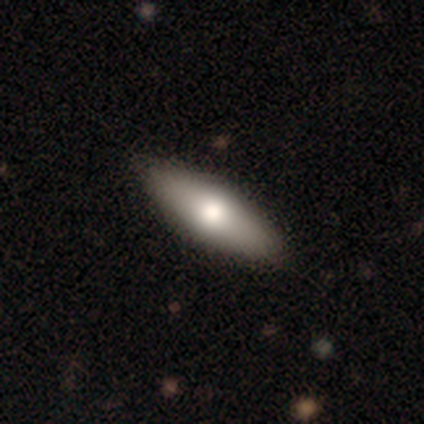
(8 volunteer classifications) This is possibly a smooth galaxy (50%, tied with featured or disk). How rounded: clearly in between (100%). Merging: clearly none (100%).